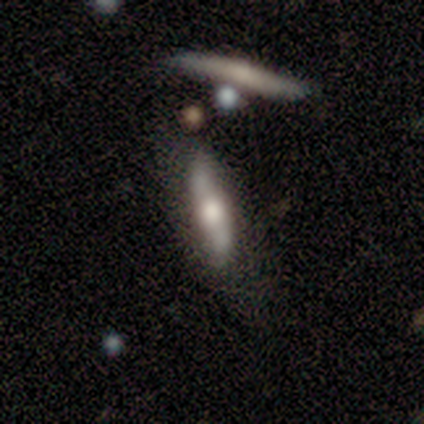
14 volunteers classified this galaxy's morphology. A featured or disk galaxy (57%) with no bar (60%), 2 (100%) loose (100%) spiral arms (60%) and a large central bulge (60%). Merging: none (54%).